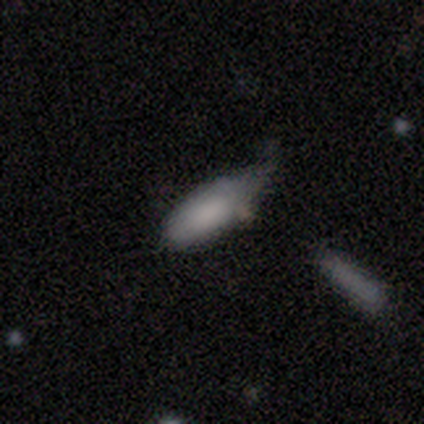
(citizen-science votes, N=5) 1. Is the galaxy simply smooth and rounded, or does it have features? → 80% smooth, 20% featured or disk, 0% star or artifact.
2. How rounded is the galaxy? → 100% in between, 0% round, 0% cigar-shaped.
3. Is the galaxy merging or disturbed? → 60% minor disturbance, 20% none, 20% major disturbance, 0% merger.